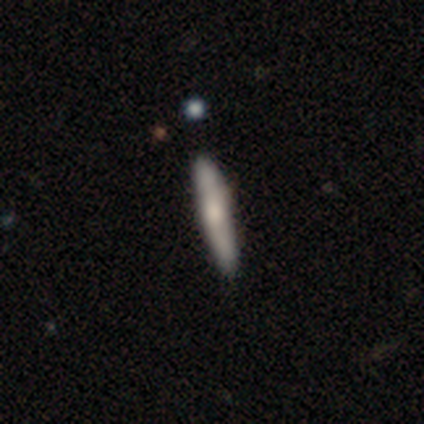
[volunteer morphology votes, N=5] Overall: featured or disk (80%). Edge-on disk: yes (75%). Edge-on bulge: rounded (67%; boxy 33%). Merging: none (100%).